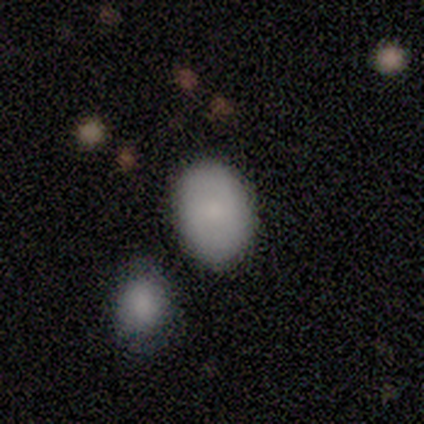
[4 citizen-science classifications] Volunteers were most divided on "how rounded": in between: 67%, round: 33%, cigar-shaped: 0%. More confident: merging — none (100%); smooth or featured — smooth (75%).